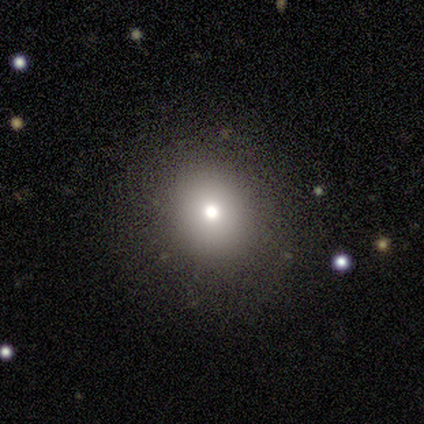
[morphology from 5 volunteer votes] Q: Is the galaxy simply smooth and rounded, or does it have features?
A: smooth — 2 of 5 (40%, tied with star or artifact).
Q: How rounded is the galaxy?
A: round — 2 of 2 (100%).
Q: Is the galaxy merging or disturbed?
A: none — 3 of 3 (100%).